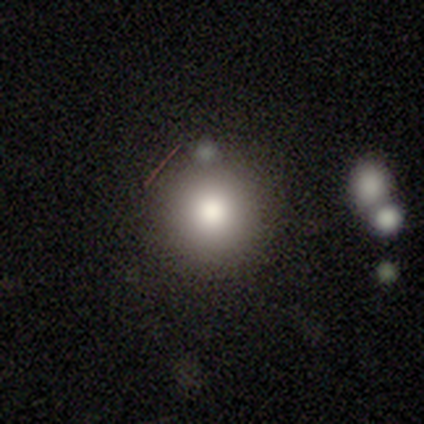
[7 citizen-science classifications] A smooth galaxy with no disk features (86%) that is round (83%). Merging: none (67%).